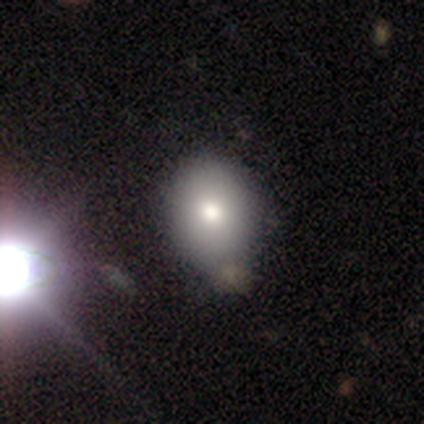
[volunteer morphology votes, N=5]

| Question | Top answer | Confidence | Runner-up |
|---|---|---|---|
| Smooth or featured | smooth | 100% | — |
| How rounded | round | 60% | in between (40%) |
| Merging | none | 60% | minor disturbance (40%) |